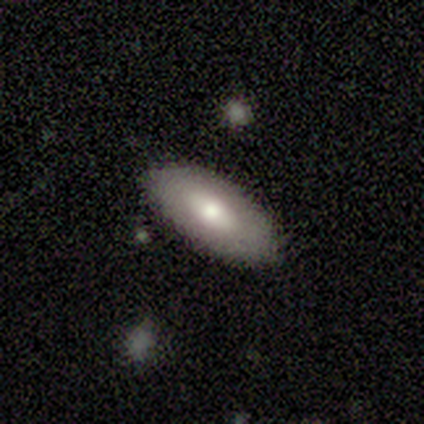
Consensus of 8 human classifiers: This appears to be a smooth galaxy with no disk features (88%) that is in between round and cigar-shaped (86%). Merging: none (88%).